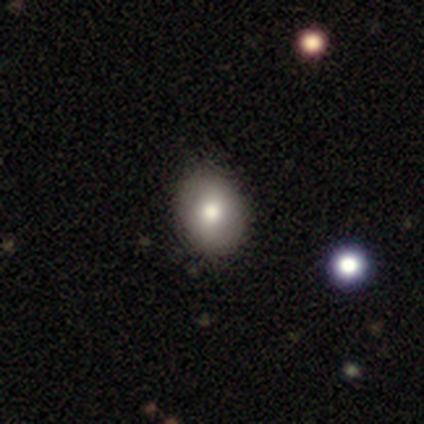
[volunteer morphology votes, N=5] Smooth or featured?
  - smooth: 100% *
  - featured or disk: 0%
  - star or artifact: 0%
How rounded?
  - in between: 60% *
  - round: 40%
  - cigar-shaped: 0%
Merging?
  - none: 100% *
  - minor disturbance: 0%
  - major disturbance: 0%
  - merger: 0%